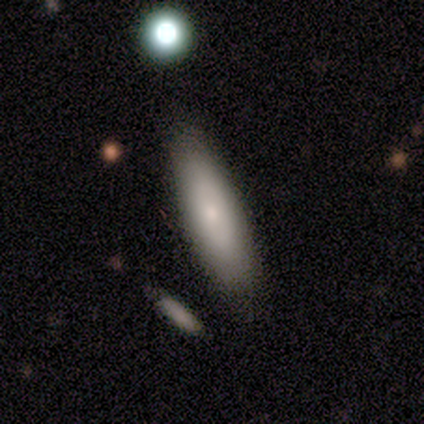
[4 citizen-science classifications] smooth_or_featured: smooth (p=1.00)
how_rounded: cigar-shaped (p=0.75) [alt: in between p=0.25]
merging: none (p=1.00)